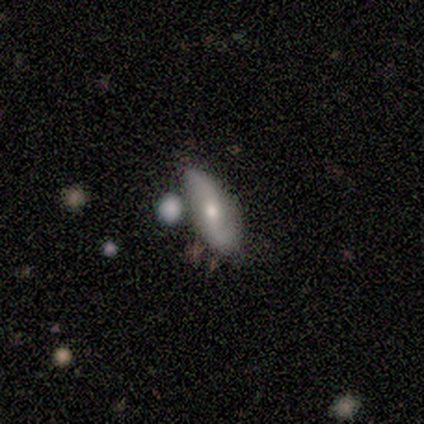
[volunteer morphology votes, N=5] type=featured or disk (60%); edge-on=no (100%); bar=weak (67%); spiral arms=no (67%); bulge=moderate (67%); merging=none (60%).